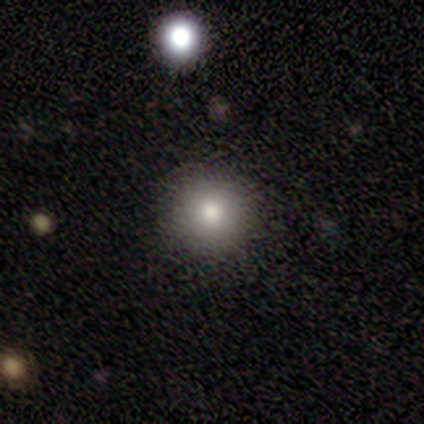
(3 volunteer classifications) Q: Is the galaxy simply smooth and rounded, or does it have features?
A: smooth — 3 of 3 (100%).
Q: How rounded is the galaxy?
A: round — 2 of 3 (67%).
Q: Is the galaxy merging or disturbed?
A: none — 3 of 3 (100%).